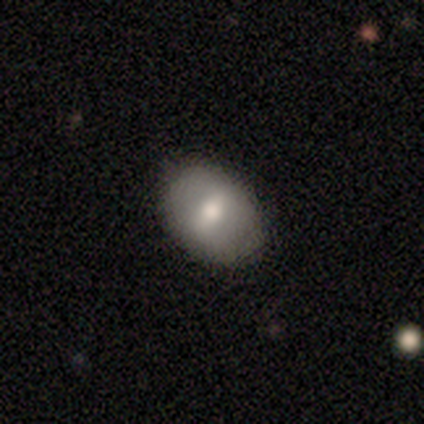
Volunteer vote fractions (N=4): This appears to be a smooth galaxy with no disk features (50%, tied with featured or disk) that is in between round and cigar-shaped (100%). Merging: none (75%).